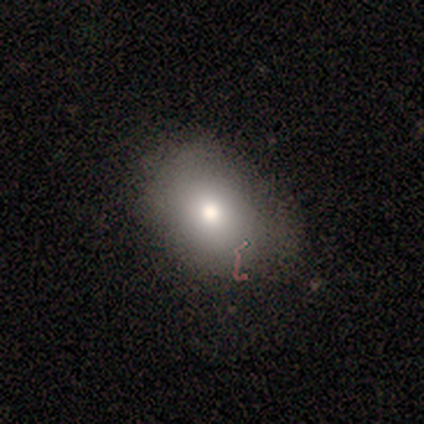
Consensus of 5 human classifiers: Morphology: type=smooth (60%); roundness=in between (67%); merging=none (50%).